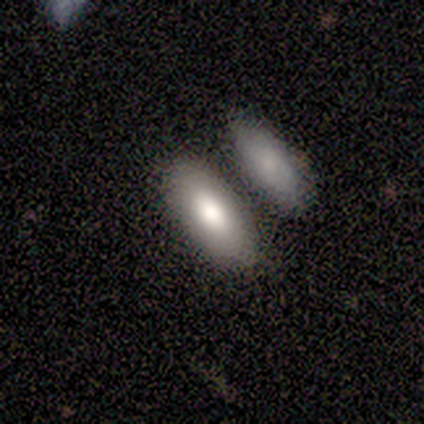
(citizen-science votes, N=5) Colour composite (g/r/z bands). It shows a smooth galaxy with no disk features (100%) that is in between round and cigar-shaped (80%). Merging: none (100%).